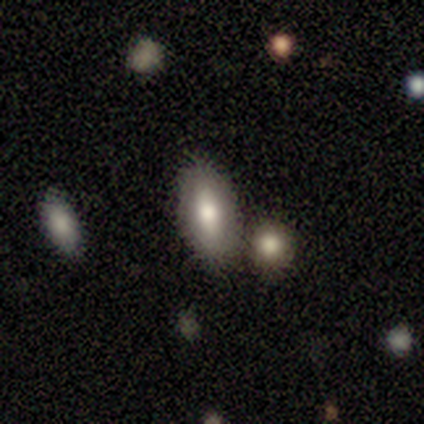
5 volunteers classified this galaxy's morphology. This appears to be a smooth galaxy with no disk features (80%) that is in between round and cigar-shaped (75%). Merging: none (60%).